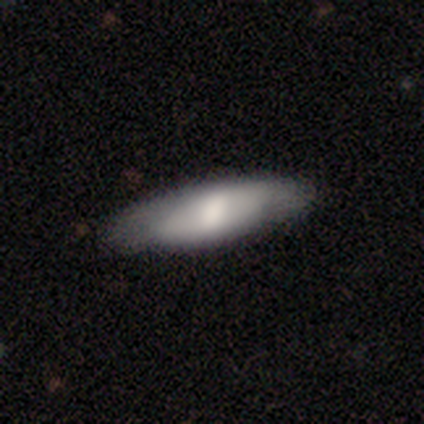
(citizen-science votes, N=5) Smooth or featured: featured or disk — 60% (smooth — 40%)
Edge-on disk: no — 67% (yes — 33%)
Bar: weak — 100%
Spiral arms: no — 100%
Bulge size: moderate — 100%
Merging: none — 100%